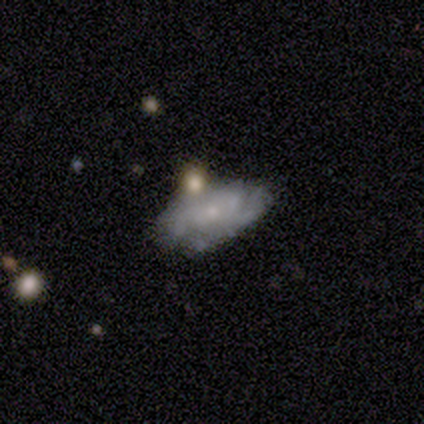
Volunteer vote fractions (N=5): smooth-or-featured: featured or disk: 80% | smooth: 20% | star or artifact: 0%
  disk-edge-on: no: 100% | yes: 0%
    bar: no: 100% | strong: 0% | weak: 0%
    has-spiral-arms: yes: 75% | no: 25%
      spiral-winding: tight: 67% | medium: 33% | loose: 0%
      spiral-arm-count: 1: 33% (tied) | 2: 33% (tied) | can't tell: 33% (tied) | 3: 0% | 4: 0% | more than 4: 0%
    bulge-size: small: 100% | dominant: 0% | large: 0% | moderate: 0% | none: 0%
  merging: none: 80% | major disturbance: 20% | minor disturbance: 0% | merger: 0%